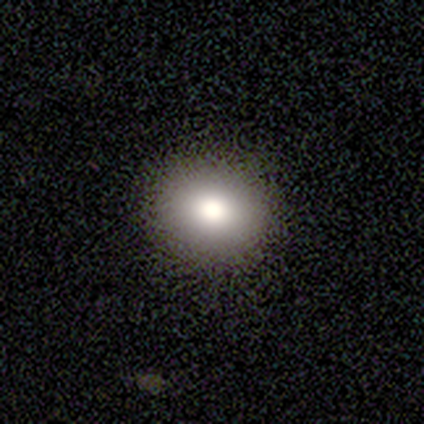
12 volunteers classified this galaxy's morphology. Smooth or featured? 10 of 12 (83%) said smooth. How rounded? 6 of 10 (60%) said round. Merging? 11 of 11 (100%) said none.